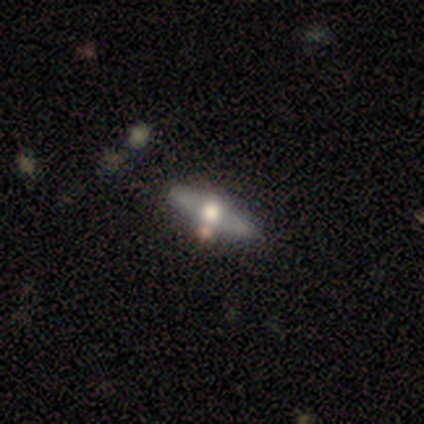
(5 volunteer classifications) This is clearly a featured or disk galaxy (80%). It is likely viewed edge-on (75%). Edge-on bulge: clearly rounded (100%). Merging: clearly none (80%).